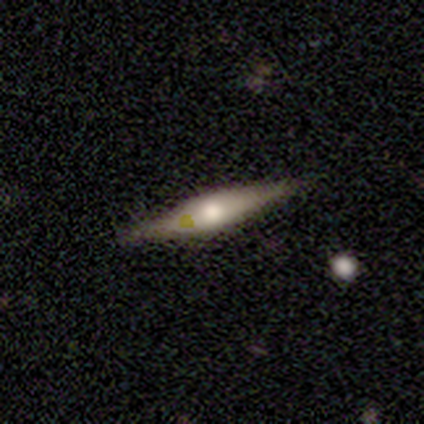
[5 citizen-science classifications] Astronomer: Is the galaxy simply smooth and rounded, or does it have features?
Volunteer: featured or disk — 60% (runner-up: smooth, 40%).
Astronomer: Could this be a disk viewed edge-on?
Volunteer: yes — 100%.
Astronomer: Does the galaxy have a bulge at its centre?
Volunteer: rounded — 100%.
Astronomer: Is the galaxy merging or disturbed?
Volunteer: none — 80%.